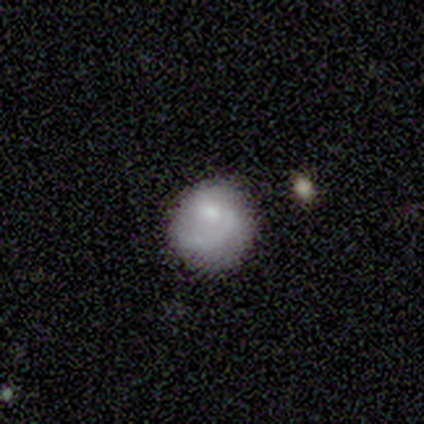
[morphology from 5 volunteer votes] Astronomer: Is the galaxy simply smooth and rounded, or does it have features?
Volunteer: smooth — 80%.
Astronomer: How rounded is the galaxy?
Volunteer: round — 100%.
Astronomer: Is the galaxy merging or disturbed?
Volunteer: none — 60% (runner-up: minor disturbance, 40%).